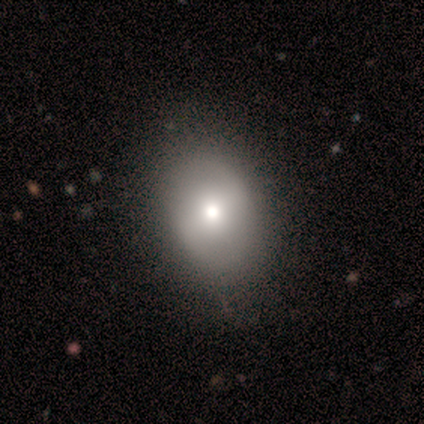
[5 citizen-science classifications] Q: Smooth or featured?
A: smooth (40%); tied with: featured or disk (40%)
Q: How rounded?
A: in between (100%)
Q: Merging?
A: none (100%)